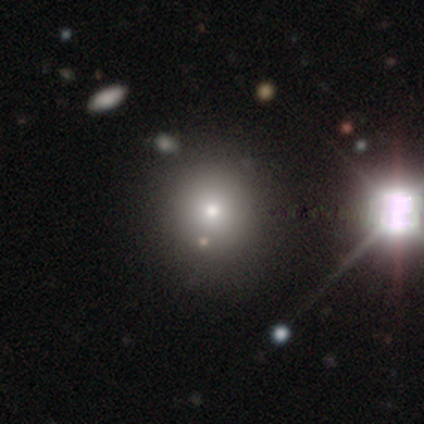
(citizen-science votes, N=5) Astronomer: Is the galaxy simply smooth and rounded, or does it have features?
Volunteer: smooth — 40%, tied with star or artifact at 40%.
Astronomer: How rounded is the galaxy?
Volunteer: round — 50%, tied with in between at 50%.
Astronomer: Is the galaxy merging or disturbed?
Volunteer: none — 100%.